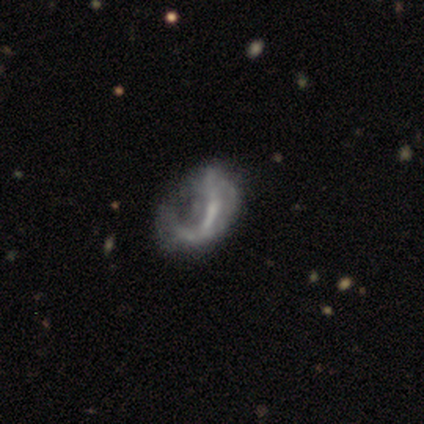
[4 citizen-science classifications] smooth_or_featured: featured or disk (p=0.50) [tied with: star or artifact p=0.50]
disk_edge_on: no (p=1.00)
bar: no (p=1.00)
has_spiral_arms: no (p=1.00)
bulge_size: large (p=0.50) [tied with: none p=0.50]
merging: minor disturbance (p=0.50) [tied with: major disturbance p=0.50]